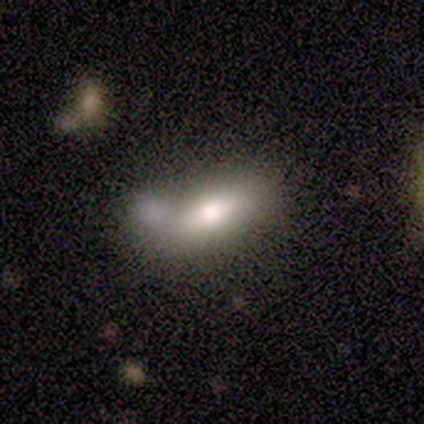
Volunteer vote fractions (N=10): Smooth or featured? smooth (60%)
How rounded? in between (100%)
Merging? none (40%, tied with merger)